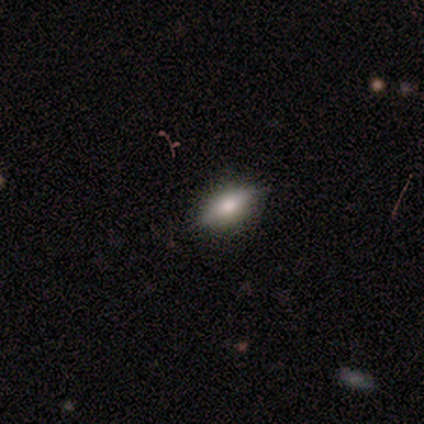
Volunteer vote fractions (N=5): Q: Smooth or featured?
A: smooth (60%); runner-up: star or artifact (40%)
Q: How rounded?
A: in between (100%)
Q: Merging?
A: none (67%); runner-up: minor disturbance (33%)